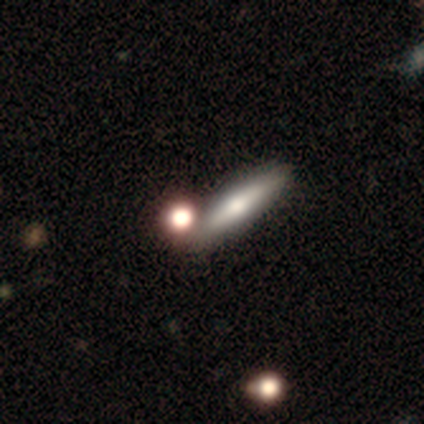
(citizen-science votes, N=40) smooth_or_featured: smooth (p=0.55) [alt: featured or disk p=0.38]
how_rounded: cigar-shaped (p=0.55) [alt: in between p=0.32]
merging: none (p=0.57) [alt: merger p=0.16]